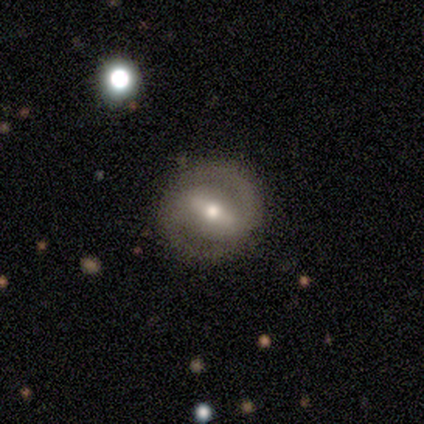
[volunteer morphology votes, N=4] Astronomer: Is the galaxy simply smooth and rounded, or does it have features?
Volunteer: featured or disk — 50%.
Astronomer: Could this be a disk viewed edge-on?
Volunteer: no — 100%.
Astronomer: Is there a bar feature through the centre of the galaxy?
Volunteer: strong — 50%, tied with no at 50%.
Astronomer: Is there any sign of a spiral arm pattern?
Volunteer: yes — 100%.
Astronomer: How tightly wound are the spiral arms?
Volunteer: medium — 100%.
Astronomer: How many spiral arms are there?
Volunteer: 2 — 100%.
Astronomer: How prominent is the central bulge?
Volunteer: small — 100%.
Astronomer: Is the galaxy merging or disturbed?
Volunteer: none — 67%.